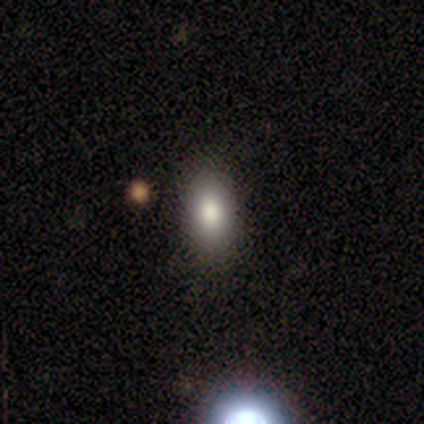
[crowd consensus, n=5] This appears to be a smooth galaxy with no disk features (80%) that is in between round and cigar-shaped (100%). Merging: none (100%).